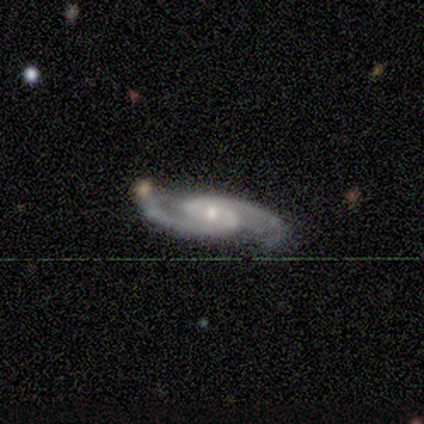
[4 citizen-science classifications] featured or disk 100%, smooth 0%, star or artifact 0%. Down the decision tree: edge-on disk — no (100%); bar — weak (75%); spiral arms — yes (100%); spiral arm count — 2 (100%); spiral winding — loose (50%); bulge size — small (75%); merging — none (100%).